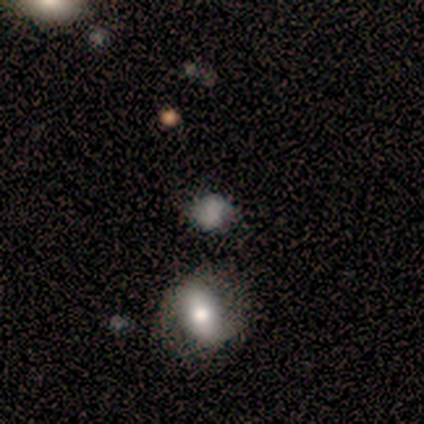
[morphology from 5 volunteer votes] Overall: smooth (60%; star or artifact 40%). How rounded: round (67%; in between 33%). Merging: none (67%; minor disturbance 33%).